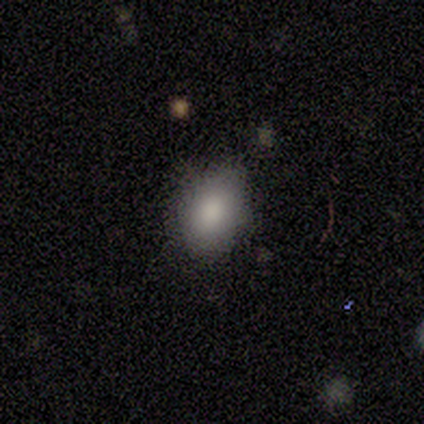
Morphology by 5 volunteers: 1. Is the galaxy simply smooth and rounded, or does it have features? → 100% smooth, 0% featured or disk, 0% star or artifact.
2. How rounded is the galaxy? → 60% round, 40% in between, 0% cigar-shaped.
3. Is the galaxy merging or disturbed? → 60% none, 40% minor disturbance, 0% major disturbance, 0% merger.